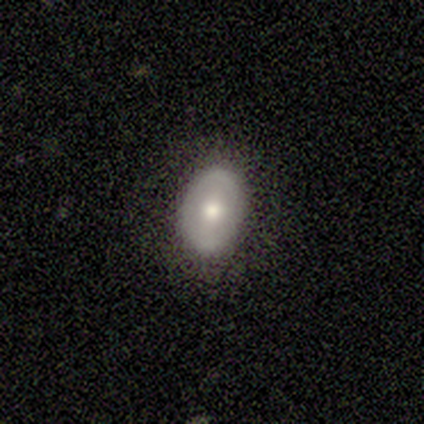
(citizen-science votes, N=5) smooth-or-featured: featured or disk: 60% | smooth: 20% | star or artifact: 20%
  disk-edge-on: no: 100% | yes: 0%
    bar: strong: 33% (tied) | weak: 33% (tied) | no: 33% (tied)
    has-spiral-arms: no: 100% | yes: 0%
    bulge-size: moderate: 100% | dominant: 0% | large: 0% | small: 0% | none: 0%
  merging: none: 75% | minor disturbance: 25% | major disturbance: 0% | merger: 0%